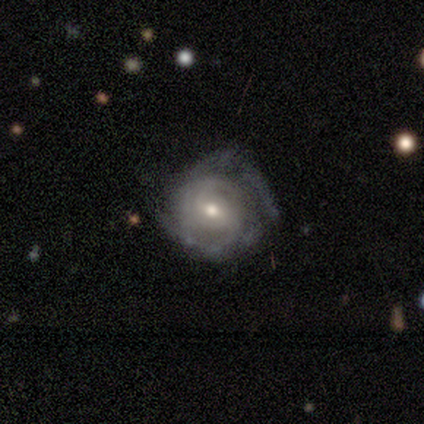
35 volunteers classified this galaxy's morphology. smooth-or-featured: featured or disk: 86% | smooth: 11% | star or artifact: 3%
  disk-edge-on: no: 100% | yes: 0%
    bar: weak: 47% | no: 43% | strong: 10%
    has-spiral-arms: yes: 90% | no: 10%
      spiral-winding: tight: 67% | medium: 22% | loose: 11%
      spiral-arm-count: can't tell: 37% | 2: 33% | 3: 15% | 1: 7% | 4: 7% | more than 4: 0%
    bulge-size: moderate: 60% | small: 33% | large: 7% | dominant: 0% | none: 0%
  merging: none: 32% | minor disturbance: 29% | major disturbance: 9% | merger: 3%